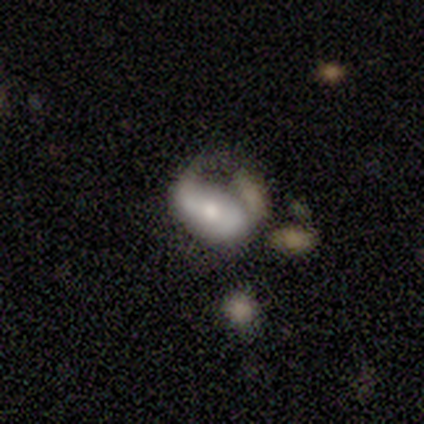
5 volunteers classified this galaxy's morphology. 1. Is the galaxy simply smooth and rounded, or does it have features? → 80% smooth, 20% featured or disk, 0% star or artifact.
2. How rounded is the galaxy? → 100% in between, 0% round, 0% cigar-shaped.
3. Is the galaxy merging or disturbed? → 40% minor disturbance (tied), 40% merger (tied), 20% none, 0% major disturbance.